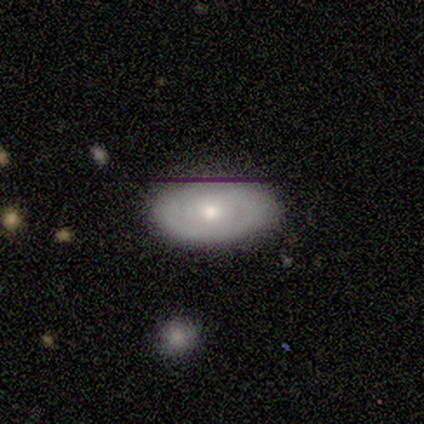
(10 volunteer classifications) Smooth or featured? featured or disk (50%)
Edge-on disk? no (80%)
Bar? no (75%)
Spiral arms? yes (50%, tied with no)
Spiral winding? tight (100%)
Spiral arm count? 2 (100%)
Bulge size? moderate (50%)
Merging? none (89%)